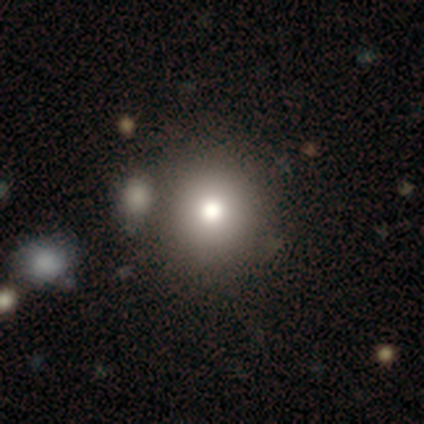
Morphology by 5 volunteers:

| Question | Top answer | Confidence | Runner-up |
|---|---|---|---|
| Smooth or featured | smooth | 60% | featured or disk (40%) |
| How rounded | round | 100% | — |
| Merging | none | 100% | — |